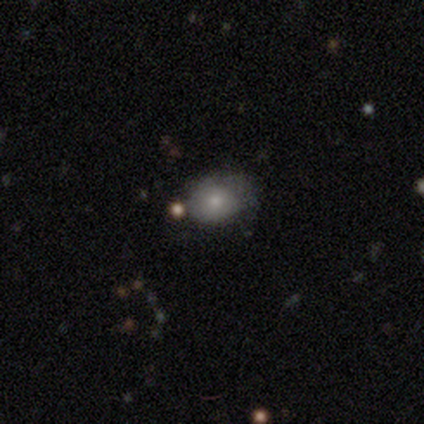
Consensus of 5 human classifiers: Smooth or featured? 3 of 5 (60%) said featured or disk. Edge-on disk? 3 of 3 (100%) said no. Bar? 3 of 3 (100%) said no. Spiral arms? 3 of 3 (100%) said no. Bulge size? 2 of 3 (67%) said small. Merging? 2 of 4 (50%) said minor disturbance.